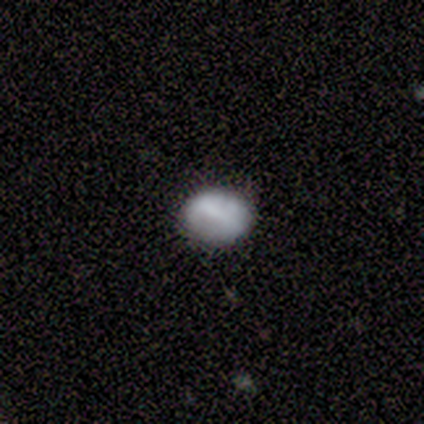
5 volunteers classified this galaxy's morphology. Q: Smooth or featured?
A: smooth (80%); runner-up: featured or disk (20%)
Q: How rounded?
A: round (100%)
Q: Merging?
A: none (80%); runner-up: minor disturbance (20%)